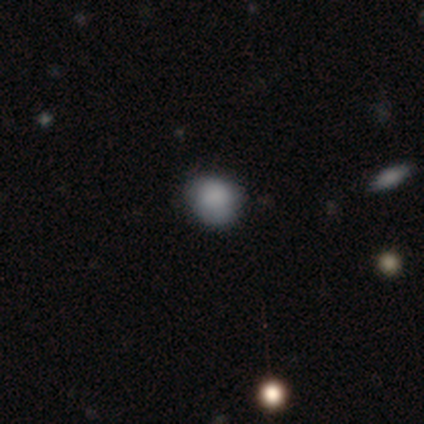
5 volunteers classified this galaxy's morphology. Overall: smooth (80%). How rounded: round (100%). Merging: none (100%).